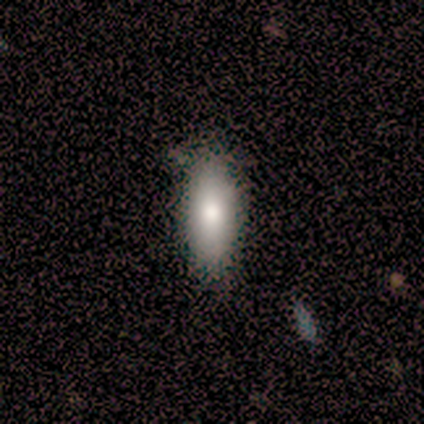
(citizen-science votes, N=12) Smooth or featured?
  - smooth: 92% *
  - featured or disk: 8%
  - star or artifact: 0%
How rounded?
  - in between: 82% *
  - cigar-shaped: 18%
  - round: 0%
Merging?
  - none: 92% *
  - merger: 8%
  - minor disturbance: 0%
  - major disturbance: 0%